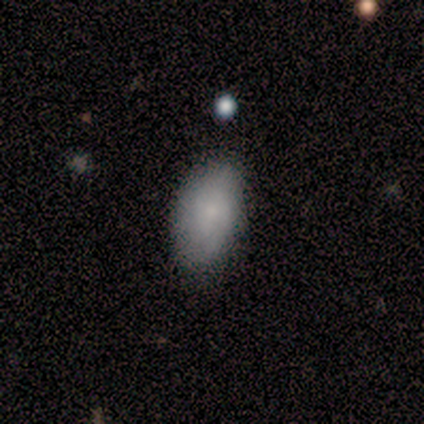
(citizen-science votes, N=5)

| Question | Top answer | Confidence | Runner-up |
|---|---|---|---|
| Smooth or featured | smooth | 80% | featured or disk (20%) |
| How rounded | in between | 100% | — |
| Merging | none | 60% | minor disturbance (40%) |